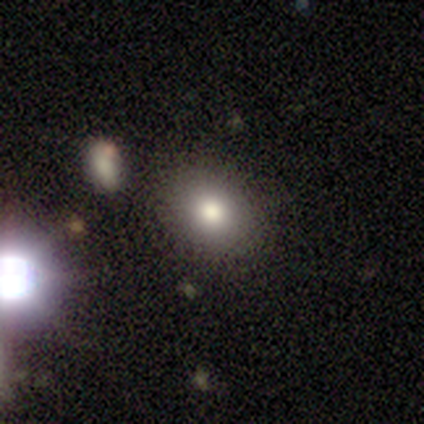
This appears to be a smooth galaxy with no disk features (80%) that is round (75%). Merging: none (60%).